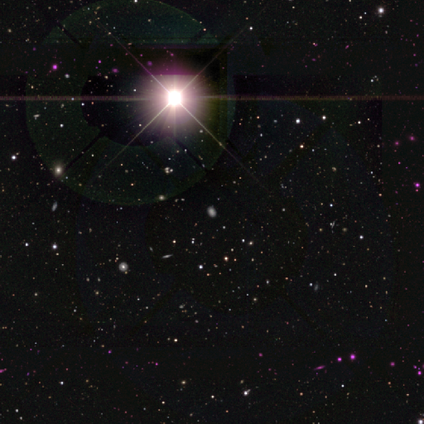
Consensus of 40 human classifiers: A star or artifact, not a galaxy (80%).